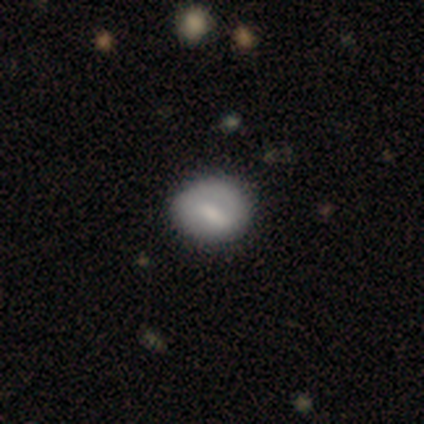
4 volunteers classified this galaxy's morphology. smooth 75%, featured or disk 25%, star or artifact 0%. Down the decision tree: how rounded — in between (67%); merging — none (100%).